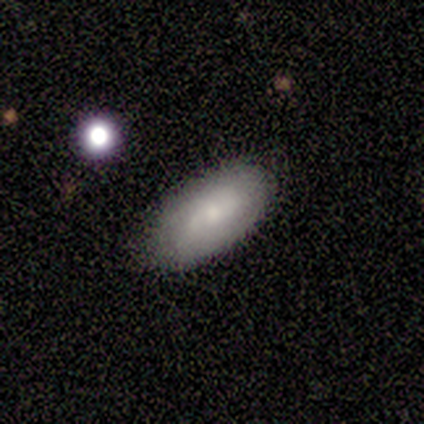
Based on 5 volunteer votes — A smooth galaxy with no disk features (60%) that is in between round and cigar-shaped (100%).

Vote fractions:
- Smooth or featured? smooth: 60% / featured or disk: 40% / star or artifact: 0%
- How rounded? in between: 100% / round: 0% / cigar-shaped: 0%
- Merging? none: 60% / minor disturbance: 40% / major disturbance: 0% / merger: 0%